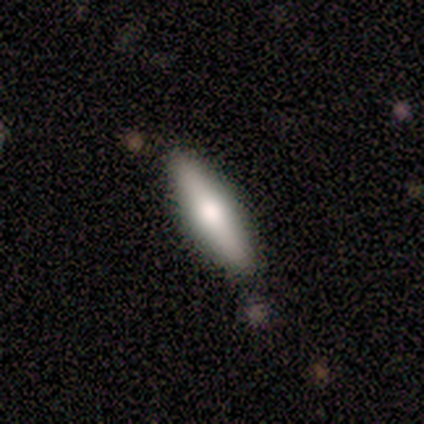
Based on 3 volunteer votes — Volunteers were most divided on "edge-on disk" (2-way tie): yes: 50%, no: 50%. More confident: edge-on bulge — rounded (100%); merging — none (100%); smooth or featured — featured or disk (67%).